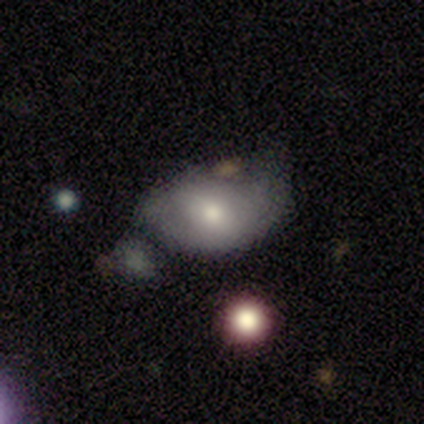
A smooth galaxy with no disk features (100%) that is in between round and cigar-shaped (60%).

Vote fractions:
- Smooth or featured? smooth: 100% / featured or disk: 0% / star or artifact: 0%
- How rounded? in between: 60% / round: 40% / cigar-shaped: 0%
- Merging? minor disturbance: 60% / none: 40% / major disturbance: 0% / merger: 0%